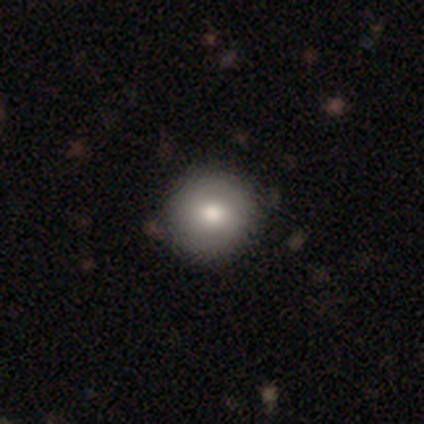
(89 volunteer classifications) smooth-or-featured: smooth: 71% | featured or disk: 19% | star or artifact: 10%
  how-rounded: round: 97% | in between: 3% | cigar-shaped: 0%
  merging: none: 92% | minor disturbance: 8% | major disturbance: 0% | merger: 0%